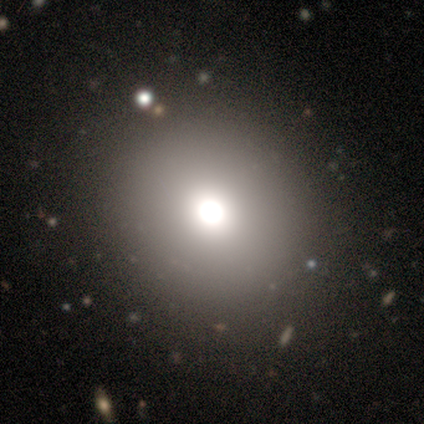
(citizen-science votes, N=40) Smooth or featured?
  - smooth: 75% *
  - star or artifact: 15%
  - featured or disk: 10%
How rounded?
  - round: 87% *
  - in between: 13%
  - cigar-shaped: 0%
Merging?
  - none: 59% *
  - minor disturbance: 9%
  - merger: 3%
  - major disturbance: 0%